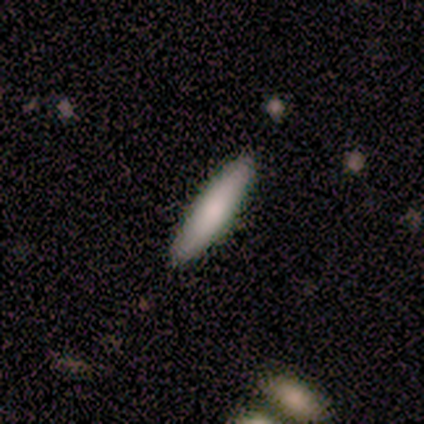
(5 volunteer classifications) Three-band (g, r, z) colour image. It shows a smooth galaxy with no disk features (100%) that is cigar-shaped (100%). Merging: none (100%).